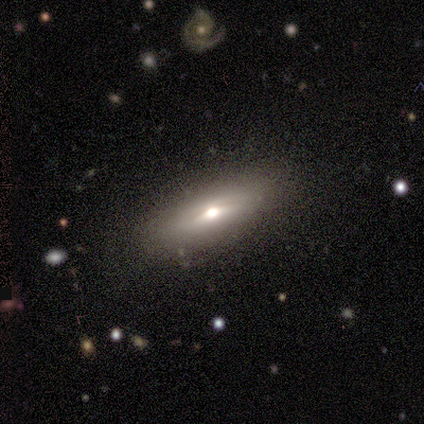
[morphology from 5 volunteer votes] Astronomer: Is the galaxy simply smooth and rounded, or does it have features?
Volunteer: featured or disk — 60% (runner-up: smooth, 40%).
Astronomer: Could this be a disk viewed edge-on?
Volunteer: yes — 100%.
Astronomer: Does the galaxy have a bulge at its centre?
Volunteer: rounded — 100%.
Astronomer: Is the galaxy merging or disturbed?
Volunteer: none — 100%.